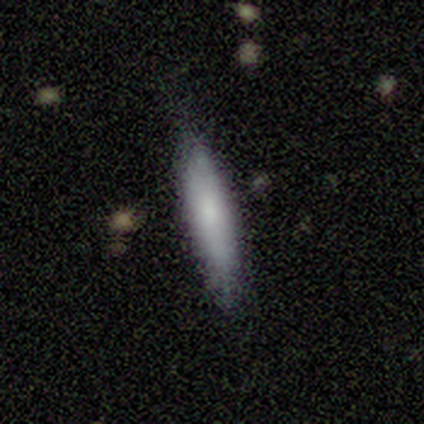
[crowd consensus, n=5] Q: Smooth or featured?
A: smooth (80%); runner-up: featured or disk (20%)
Q: How rounded?
A: in between (50%); tied with: cigar-shaped (50%)
Q: Merging?
A: none (100%)